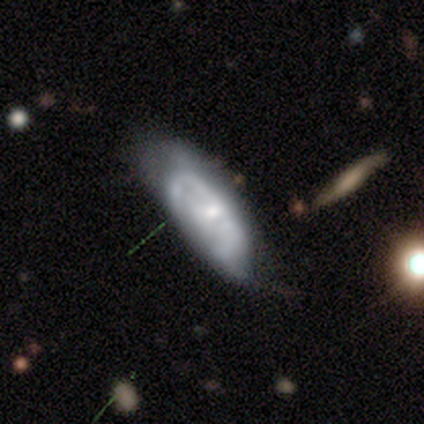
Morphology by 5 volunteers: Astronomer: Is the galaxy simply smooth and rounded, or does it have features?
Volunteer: smooth — 40%, tied with featured or disk at 40%.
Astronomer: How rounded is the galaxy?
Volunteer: in between — 100%.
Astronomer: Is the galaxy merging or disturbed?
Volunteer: none — 50%.